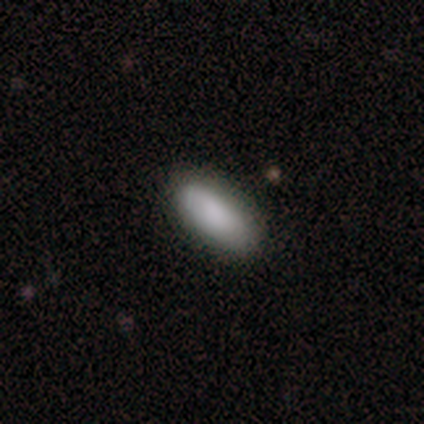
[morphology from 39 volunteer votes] Q: Smooth or featured?
A: smooth (85%); runner-up: featured or disk (13%)
Q: How rounded?
A: in between (85%); runner-up: cigar-shaped (15%)
Q: Merging?
A: none (92%); runner-up: minor disturbance (8%)